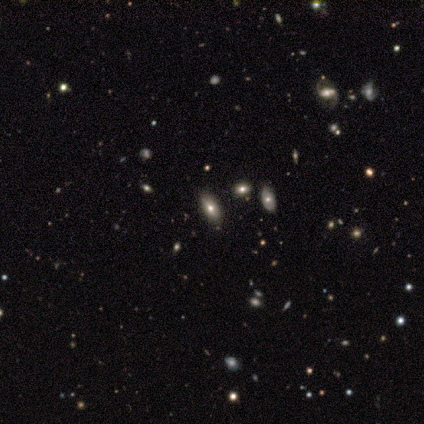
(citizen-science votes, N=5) This is clearly a smooth galaxy (80%). How rounded: likely in between (75%). Merging: clearly none (100%).